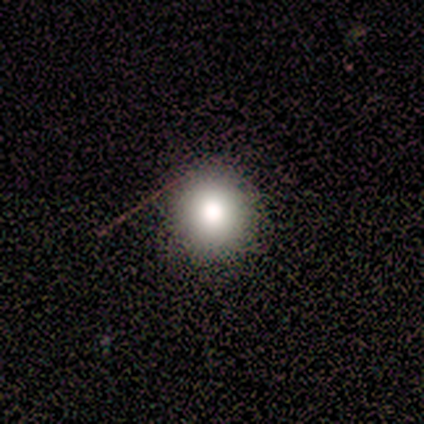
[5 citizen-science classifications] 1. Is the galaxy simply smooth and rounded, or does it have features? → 80% smooth, 20% star or artifact, 0% featured or disk.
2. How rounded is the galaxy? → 100% round, 0% in between, 0% cigar-shaped.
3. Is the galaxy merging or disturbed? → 100% none, 0% minor disturbance, 0% major disturbance, 0% merger.